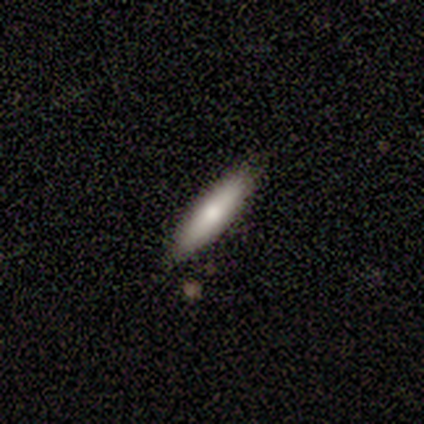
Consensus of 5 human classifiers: This appears to be a smooth galaxy with no disk features (60%) that is cigar-shaped (100%). Merging: none (100%).